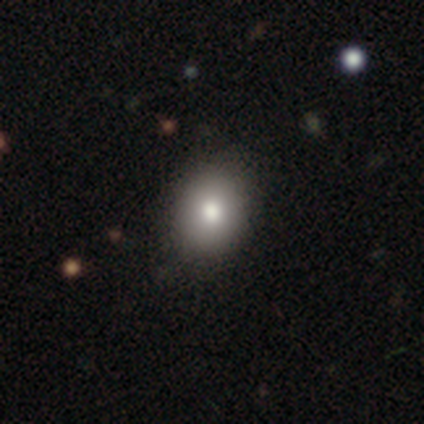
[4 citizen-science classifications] smooth_or_featured: smooth (p=0.75) [alt: featured or disk p=0.25]
how_rounded: round (p=0.67) [alt: in between p=0.33]
merging: none (p=1.00)